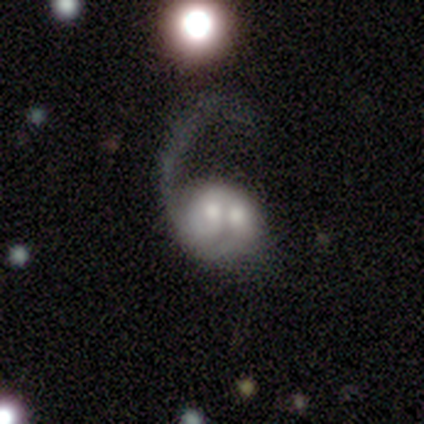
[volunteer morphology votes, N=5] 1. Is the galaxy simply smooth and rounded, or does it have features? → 60% featured or disk, 40% smooth, 0% star or artifact.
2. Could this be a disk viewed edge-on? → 100% no, 0% yes.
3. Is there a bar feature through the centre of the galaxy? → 67% no, 33% weak, 0% strong.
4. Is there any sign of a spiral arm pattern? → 67% yes, 33% no.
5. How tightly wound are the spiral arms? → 50% medium (tied), 50% loose (tied), 0% tight.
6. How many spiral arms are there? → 50% 1 (tied), 50% 2 (tied), 0% 3, 0% 4, 0% more than 4, 0% can't tell.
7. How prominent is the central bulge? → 67% small, 33% moderate, 0% dominant, 0% large, 0% none.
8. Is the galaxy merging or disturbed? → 60% merger, 40% major disturbance, 0% none, 0% minor disturbance.